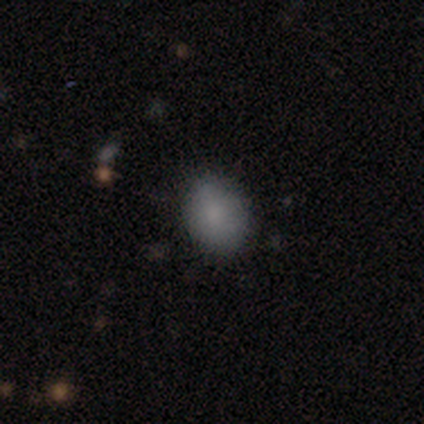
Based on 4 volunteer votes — Smooth or featured: smooth — 100%
How rounded: round — 50% (tied with in between — 50%)
Merging: none — 75% (minor disturbance — 25%)